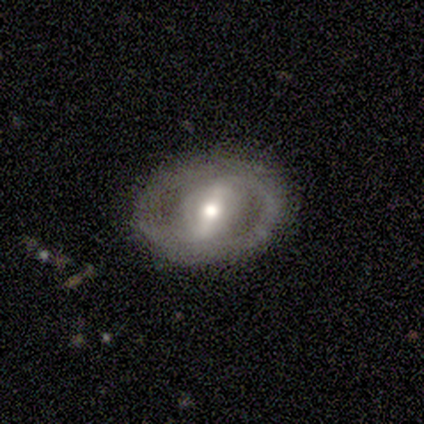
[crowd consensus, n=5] Morphology: type=featured or disk (100%); edge-on=no (100%); bar=strong (60%); spiral arms=no (60%); bulge=moderate (60%); merging=none (100%).